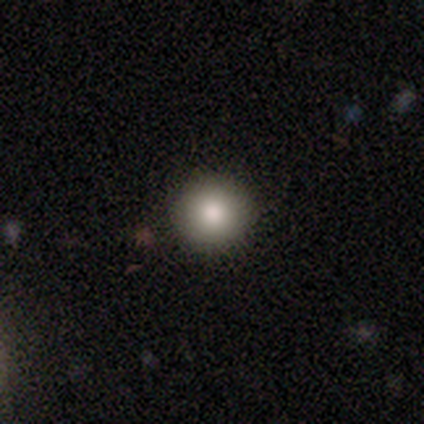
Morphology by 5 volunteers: A smooth galaxy with no disk features (100%) that is round (100%).

Vote fractions:
- Smooth or featured? smooth: 100% / featured or disk: 0% / star or artifact: 0%
- How rounded? round: 100% / in between: 0% / cigar-shaped: 0%
- Merging? none: 80% / minor disturbance: 20% / major disturbance: 0% / merger: 0%